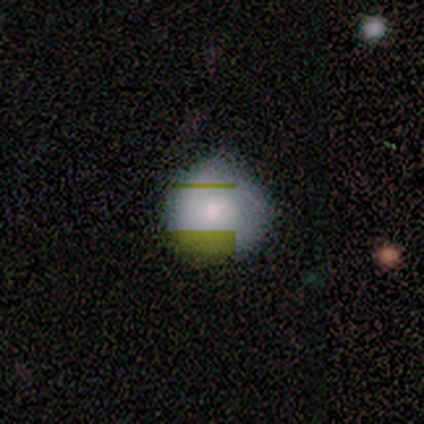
smooth-or-featured: smooth: 71% | featured or disk: 19% | star or artifact: 10%
  how-rounded: round: 95% | in between: 5% | cigar-shaped: 0%
  merging: none: 46% | minor disturbance: 6% | major disturbance: 1% | merger: 0%